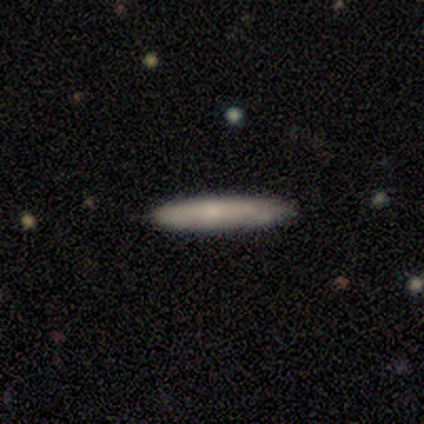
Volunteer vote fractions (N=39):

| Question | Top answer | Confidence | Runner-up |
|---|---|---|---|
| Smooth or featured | smooth | 69% | featured or disk (23%) |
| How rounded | cigar-shaped | 96% | in between (4%) |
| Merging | none | 81% | minor disturbance (19%) |